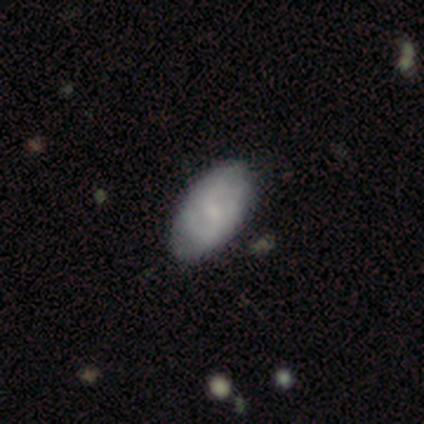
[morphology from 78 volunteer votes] This appears to be a smooth galaxy with no disk features (51%) that is in between round and cigar-shaped (92%). Merging: none (45%).